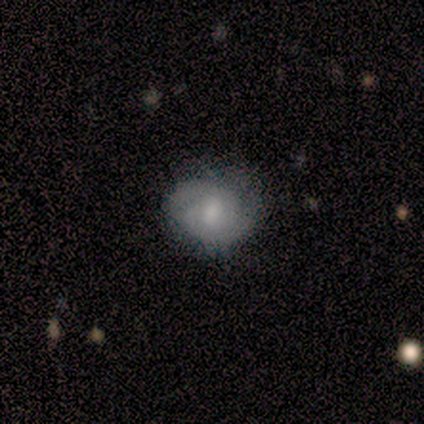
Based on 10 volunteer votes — Smooth or featured? smooth (50%, tied with featured or disk)
How rounded? round (80%)
Merging? none (70%)